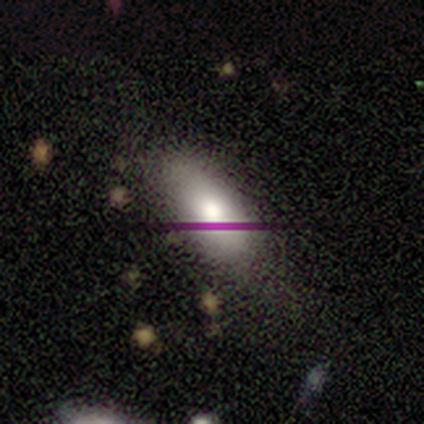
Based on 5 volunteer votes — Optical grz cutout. It shows a smooth galaxy with no disk features (80%) that is in between round and cigar-shaped (100%). Merging: none (80%).